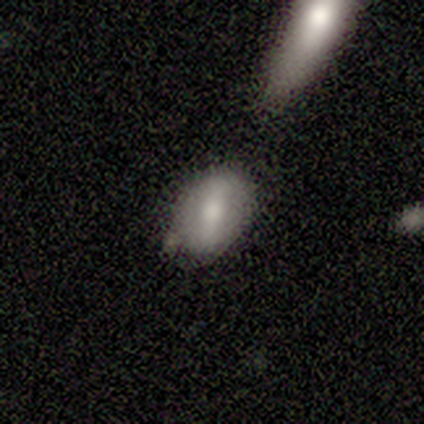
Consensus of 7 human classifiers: Q: Smooth or featured?
A: smooth (86%); runner-up: featured or disk (14%)
Q: How rounded?
A: in between (83%); runner-up: round (17%)
Q: Merging?
A: none (86%); runner-up: minor disturbance (14%)